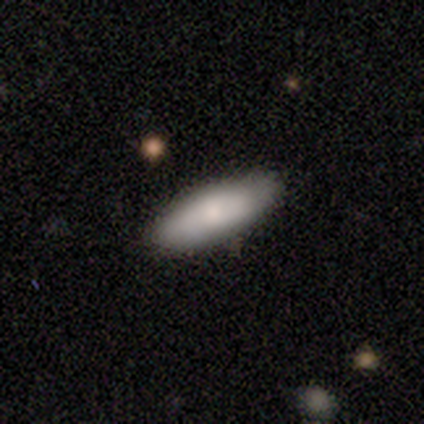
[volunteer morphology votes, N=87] Volunteers were most divided on "how rounded": in between: 54%, cigar-shaped: 46%, round: 0%. More confident: merging — none (80%); smooth or featured — smooth (79%).